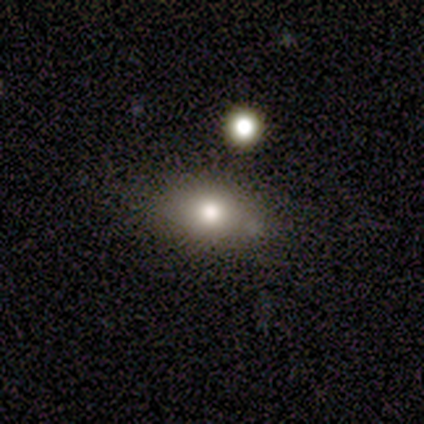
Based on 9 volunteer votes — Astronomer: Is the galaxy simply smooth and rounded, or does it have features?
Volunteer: smooth — 89%.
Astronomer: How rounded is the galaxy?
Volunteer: in between — 88%.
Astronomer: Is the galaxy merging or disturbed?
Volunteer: none — 75%.